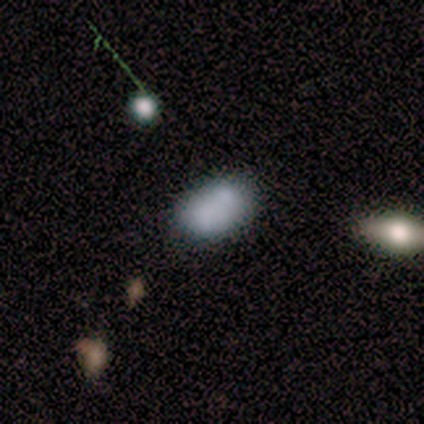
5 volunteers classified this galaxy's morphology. smooth_or_featured: smooth (p=0.80) [alt: featured or disk p=0.20]
how_rounded: in between (p=1.00)
merging: none (p=0.60) [alt: minor disturbance p=0.20]